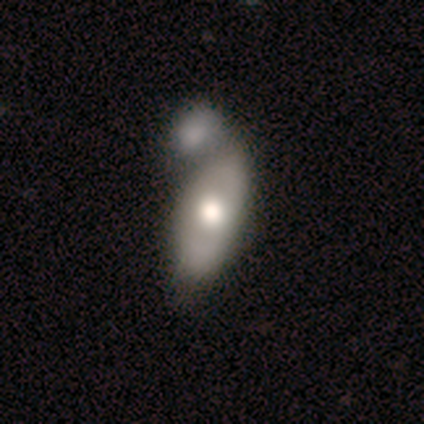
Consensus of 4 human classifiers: This appears to be a smooth galaxy with no disk features (50%, tied with featured or disk) that is in between round and cigar-shaped (50%, tied with cigar-shaped). Merging: none (75%).